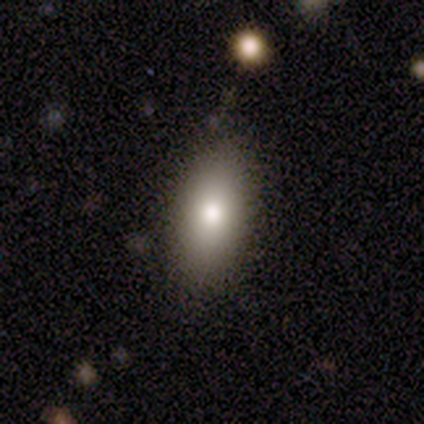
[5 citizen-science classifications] A smooth galaxy with no disk features (80%) that is in between round and cigar-shaped (100%).

Vote fractions:
- Smooth or featured? smooth: 80% / star or artifact: 20% / featured or disk: 0%
- How rounded? in between: 100% / round: 0% / cigar-shaped: 0%
- Merging? none: 100% / minor disturbance: 0% / major disturbance: 0% / merger: 0%